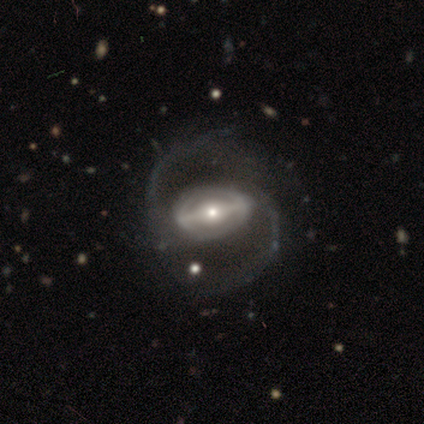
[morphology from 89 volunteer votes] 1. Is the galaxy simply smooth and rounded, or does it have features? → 91% featured or disk, 4% smooth, 4% star or artifact.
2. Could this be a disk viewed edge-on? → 96% no, 4% yes.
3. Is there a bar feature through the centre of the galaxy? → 68% strong, 21% weak, 12% no.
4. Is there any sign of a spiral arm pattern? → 85% yes, 15% no.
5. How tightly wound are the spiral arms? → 56% medium, 35% loose, 9% tight.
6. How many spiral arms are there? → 94% 2, 6% can't tell, 0% 1, 0% 3, 0% 4, 0% more than 4.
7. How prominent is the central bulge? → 47% small, 41% moderate, 12% large, 0% dominant, 0% none.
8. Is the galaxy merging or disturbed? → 71% none, 18% major disturbance, 12% minor disturbance, 0% merger.